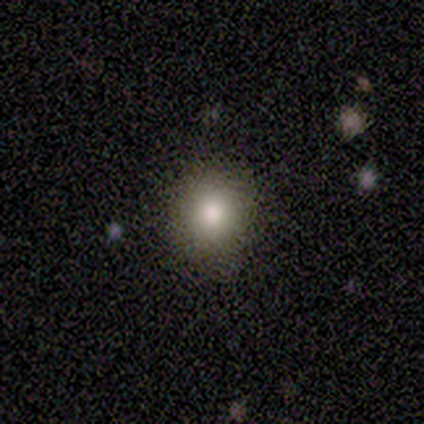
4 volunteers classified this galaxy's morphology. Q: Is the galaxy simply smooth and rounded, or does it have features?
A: smooth — 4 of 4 (100%).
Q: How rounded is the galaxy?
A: round — 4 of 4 (100%).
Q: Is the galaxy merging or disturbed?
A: none — 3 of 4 (75%).